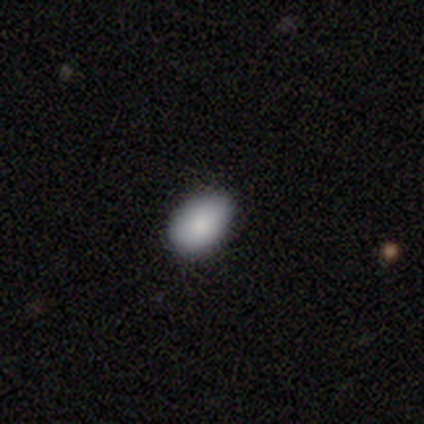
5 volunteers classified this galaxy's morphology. Smooth or featured? 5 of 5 (100%) said smooth. How rounded? 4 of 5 (80%) said in between. Merging? 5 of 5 (100%) said none.